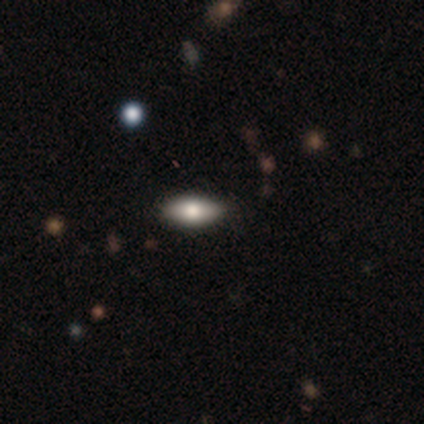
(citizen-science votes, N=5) Smooth or featured: smooth — 80% (featured or disk — 20%)
How rounded: in between — 100%
Merging: none — 80% (merger — 20%)